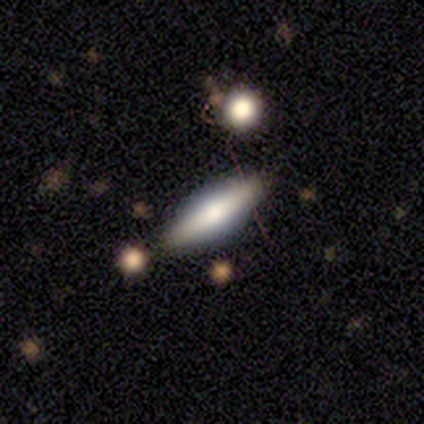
Morphology: type=smooth (67%); roundness=in between (100%); merging=minor disturbance (67%).